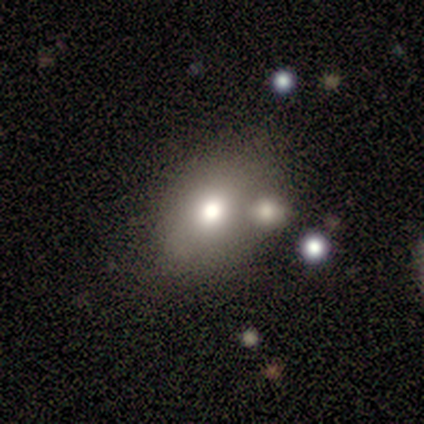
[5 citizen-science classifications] Smooth or featured: smooth — 100%
How rounded: round — 40% (tied with in between — 40%)
Merging: none — 80% (merger — 20%)